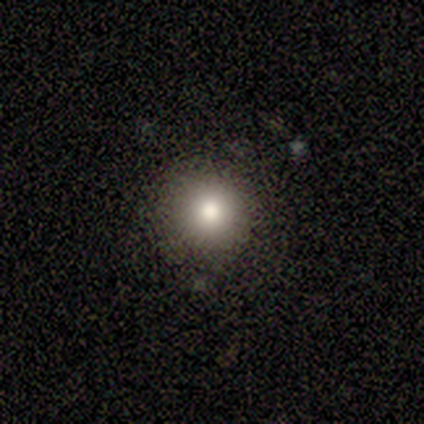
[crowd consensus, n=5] smooth 60%, featured or disk 20%, star or artifact 20%. Down the decision tree: how rounded — round (100%); merging — none (50%).